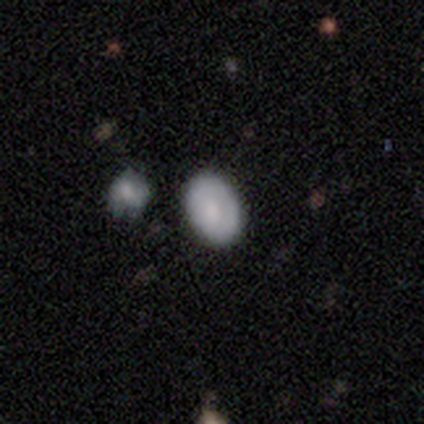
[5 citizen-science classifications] Smooth or featured? 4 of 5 (80%) said smooth. How rounded? 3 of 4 (75%) said in between. Merging? 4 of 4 (100%) said none.